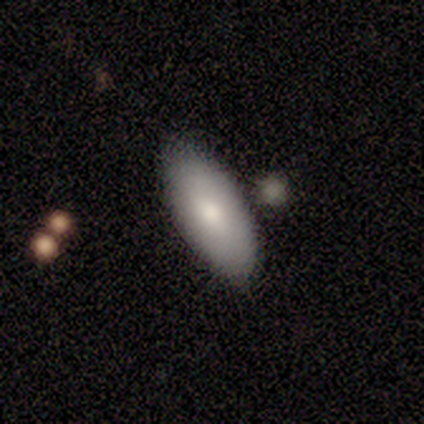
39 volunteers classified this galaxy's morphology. This appears to be a smooth galaxy with no disk features (74%) that is in between round and cigar-shaped (90%). Merging: none (84%).